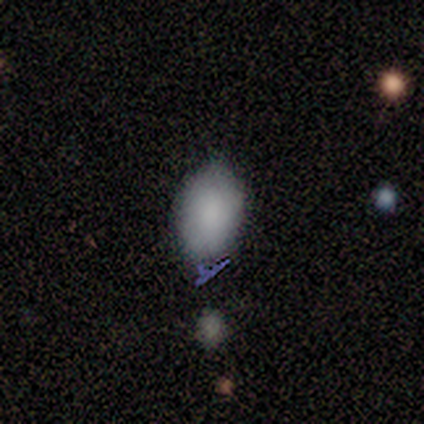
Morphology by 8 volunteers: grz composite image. It shows a smooth galaxy with no disk features (75%) that is in between round and cigar-shaped (83%). Merging: minor disturbance (57%).